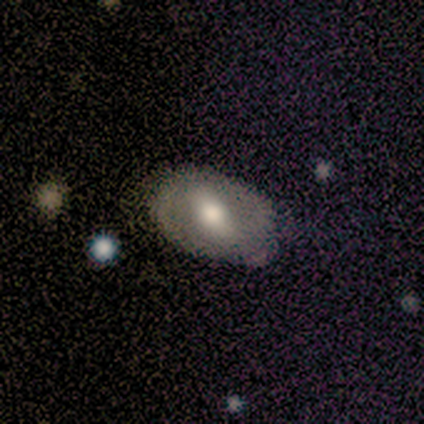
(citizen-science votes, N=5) This appears to be a featured or disk galaxy (60%) with a strong bar (33%, tied with weak and no), no spiral arms (100%) and a moderate central bulge (67%). Merging: none (60%).